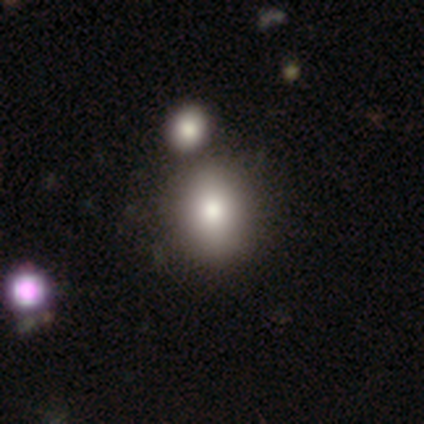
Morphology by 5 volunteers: Overall: smooth (80%). How rounded: round (50%, tied with in between). Merging: none (60%; merger 40%).